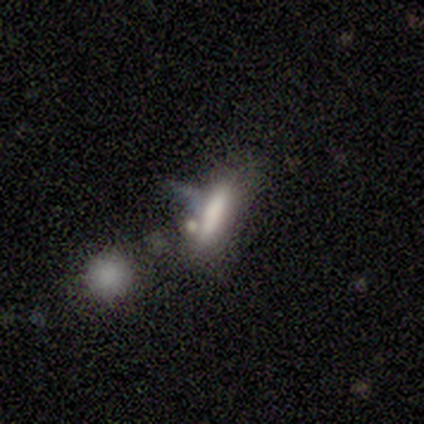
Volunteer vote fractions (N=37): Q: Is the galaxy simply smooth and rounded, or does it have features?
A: smooth — 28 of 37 (76%).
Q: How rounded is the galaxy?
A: cigar-shaped — 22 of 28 (79%).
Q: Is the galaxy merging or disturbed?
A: none — 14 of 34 (41%).